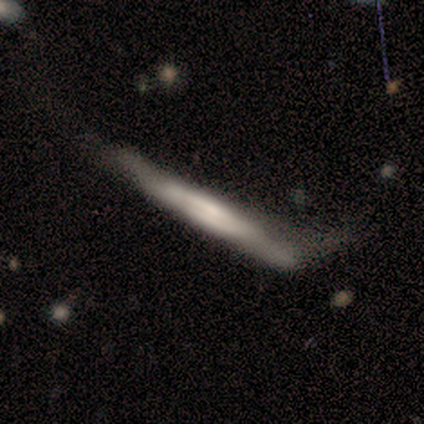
Smooth or featured: featured or disk — 60% (smooth — 40%)
Edge-on disk: yes — 100%
Edge-on bulge: boxy — 67% (none — 33%)
Merging: none — 60% (minor disturbance — 20%)